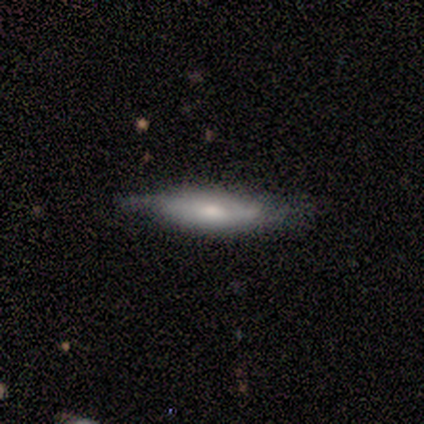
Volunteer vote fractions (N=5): Smooth or featured? smooth (60%)
How rounded? cigar-shaped (67%)
Merging? none (100%)